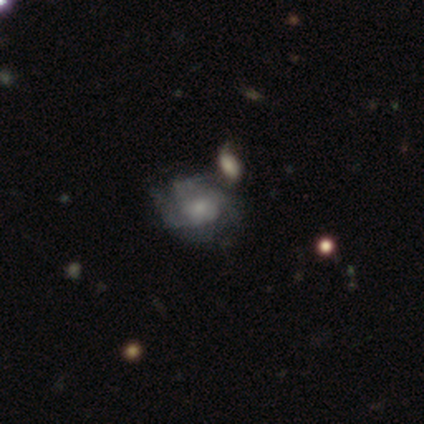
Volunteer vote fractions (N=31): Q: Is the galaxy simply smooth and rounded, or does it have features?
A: featured or disk — 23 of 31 (74%).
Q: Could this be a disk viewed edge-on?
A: no — 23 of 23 (100%).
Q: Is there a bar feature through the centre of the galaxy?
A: no — 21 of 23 (91%).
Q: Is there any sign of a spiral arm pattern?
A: yes — 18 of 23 (78%).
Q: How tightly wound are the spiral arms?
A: tight — 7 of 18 (39%).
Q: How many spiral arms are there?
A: can't tell — 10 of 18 (56%).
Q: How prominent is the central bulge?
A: small — 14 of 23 (61%).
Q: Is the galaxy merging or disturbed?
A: none — 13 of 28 (46%).